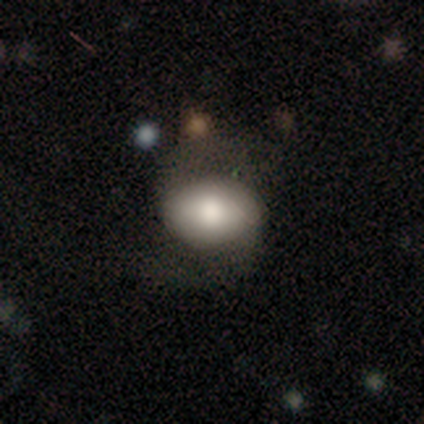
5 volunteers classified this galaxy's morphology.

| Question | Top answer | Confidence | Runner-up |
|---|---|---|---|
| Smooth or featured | smooth | 100% | — |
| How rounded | in between | 100% | — |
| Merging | none | 100% | — |